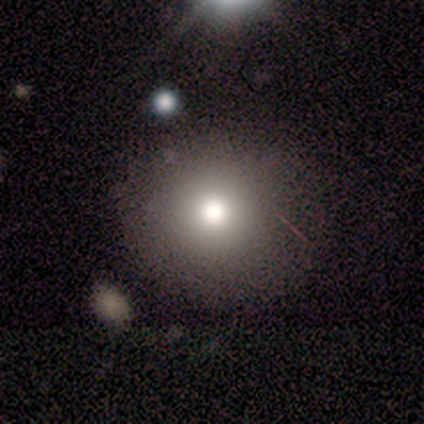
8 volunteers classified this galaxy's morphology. Smooth or featured: smooth — 75% (star or artifact — 25%)
How rounded: round — 100%
Merging: none — 100%